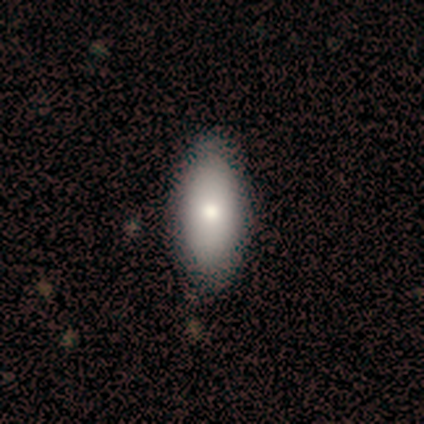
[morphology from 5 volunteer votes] type=smooth (80%); roundness=in between (100%); merging=none (100%).